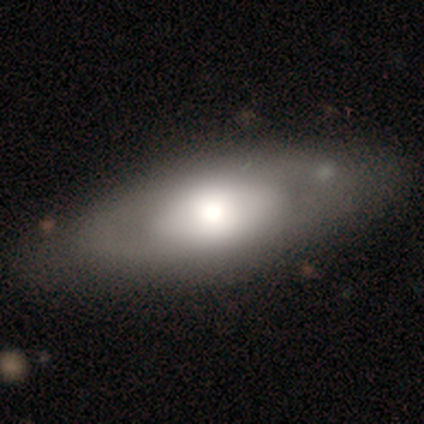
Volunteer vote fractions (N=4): Morphology: type=smooth (50%); roundness=in between (50%, tied with cigar-shaped); merging=none (67%).